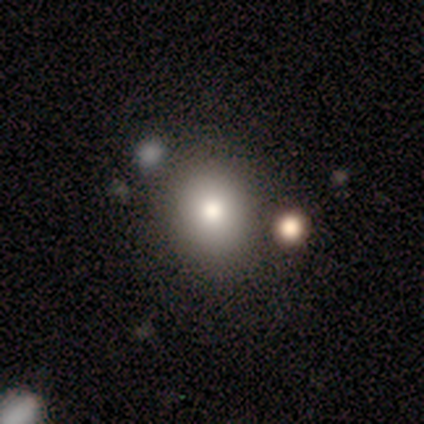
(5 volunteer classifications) smooth_or_featured: smooth (p=0.60) [alt: featured or disk p=0.40]
how_rounded: round (p=0.33) [tied with: in between p=0.33, cigar-shaped p=0.33]
merging: none (p=0.60) [alt: minor disturbance p=0.20]